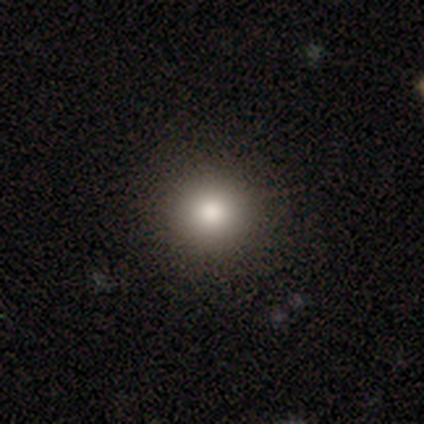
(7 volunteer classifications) Smooth or featured: smooth — 100%
How rounded: round — 100%
Merging: none — 86% (minor disturbance — 14%)